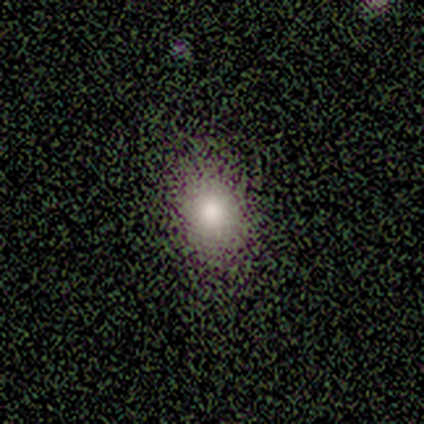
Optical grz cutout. It shows a smooth galaxy with no disk features (100%) that is in between round and cigar-shaped (60%). Merging: none (60%).